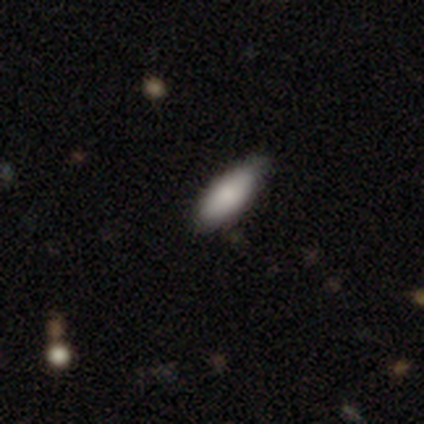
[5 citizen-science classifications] smooth_or_featured: smooth (p=0.80) [alt: featured or disk p=0.20]
how_rounded: in between (p=0.75) [alt: cigar-shaped p=0.25]
merging: minor disturbance (p=0.60) [alt: none p=0.40]